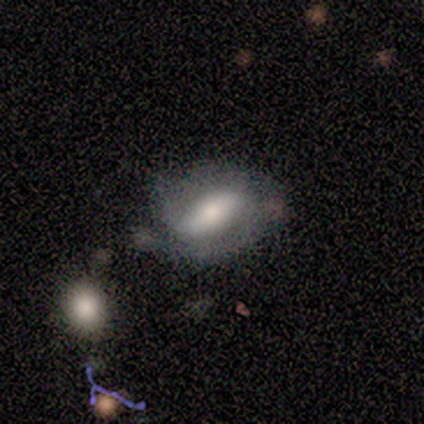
Volunteers were most divided on "bar" (3-way tie): strong: 33%, weak: 33%, no: 33%. More confident: edge-on disk — no (100%); spiral winding — tight (100%); spiral arm count — 1 (100%); smooth or featured — featured or disk (75%); spiral arms — yes (67%); bulge size — large (67%); merging — none (50%).